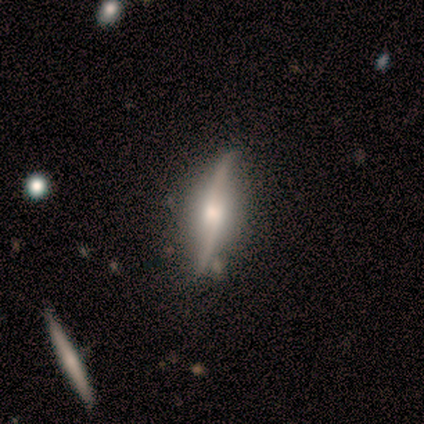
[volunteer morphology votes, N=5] Smooth or featured? featured or disk (100%)
Edge-on disk? no (60%)
Bar? weak (67%)
Spiral arms? yes (67%)
Spiral winding? loose (100%)
Spiral arm count? 2 (100%)
Bulge size? small (67%)
Merging? none (60%)